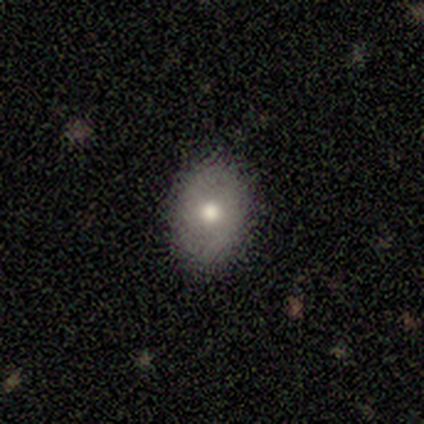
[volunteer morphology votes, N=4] smooth-or-featured: smooth: 75% | star or artifact: 25% | featured or disk: 0%
  how-rounded: round: 100% | in between: 0% | cigar-shaped: 0%
  merging: none: 67% | major disturbance: 33% | minor disturbance: 0% | merger: 0%